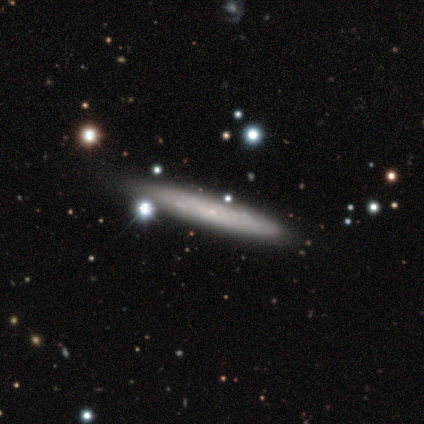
Morphology: type=smooth (60%); roundness=cigar-shaped (100%); merging=none (100%).